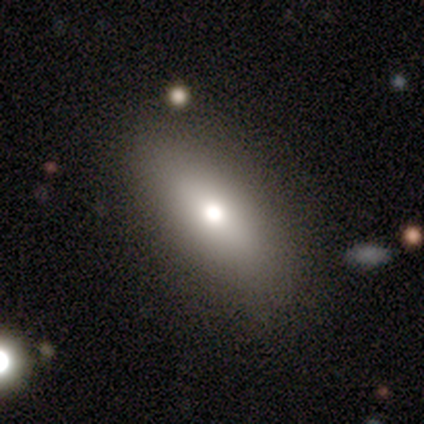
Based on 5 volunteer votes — Volunteers were most divided on "smooth or featured" (2-way tie): smooth: 40%, star or artifact: 40%, featured or disk: 20%; "how rounded" (2-way tie): in between: 50%, cigar-shaped: 50%, round: 0%. More confident: merging — none (100%).